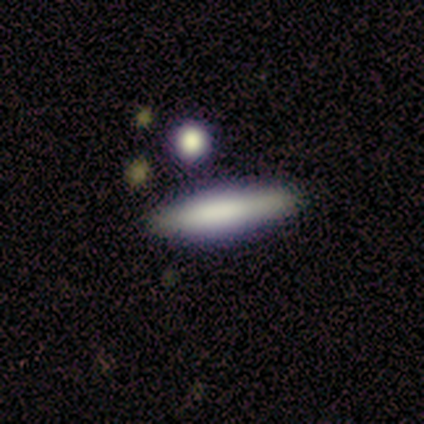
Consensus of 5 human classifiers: A smooth galaxy with no disk features (60%) that is cigar-shaped (67%).

Vote fractions:
- Smooth or featured? smooth: 60% / featured or disk: 40% / star or artifact: 0%
- How rounded? cigar-shaped: 67% / in between: 33% / round: 0%
- Merging? none: 80% / minor disturbance: 20% / major disturbance: 0% / merger: 0%